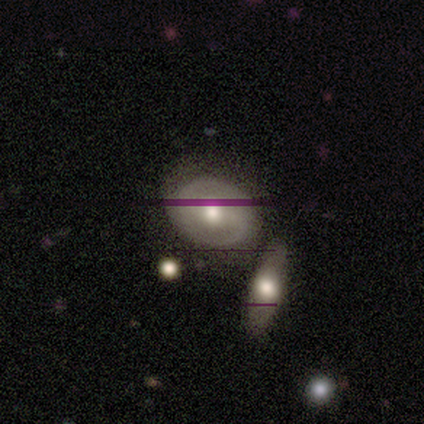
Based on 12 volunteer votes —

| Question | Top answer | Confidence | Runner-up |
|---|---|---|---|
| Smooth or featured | featured or disk | 67% | smooth (33%) |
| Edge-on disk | no | 100% | — |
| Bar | no | 50% | strong (38%) |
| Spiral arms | yes | 75% | no (25%) |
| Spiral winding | medium | 50% | tight (33%) |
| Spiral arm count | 2 | 100% | — |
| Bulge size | moderate | 88% | large (12%) |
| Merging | none | 58% | minor disturbance (25%) |